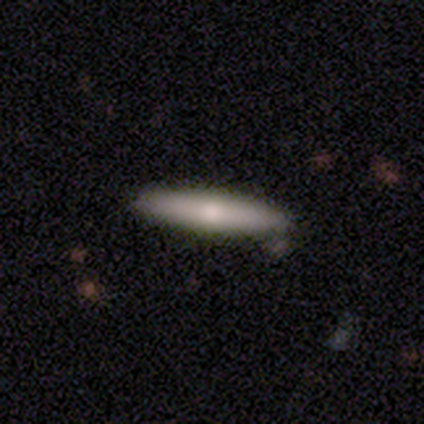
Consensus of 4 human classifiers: smooth_or_featured: smooth (p=0.50) [tied with: featured or disk p=0.50]
how_rounded: cigar-shaped (p=1.00)
merging: none (p=1.00)